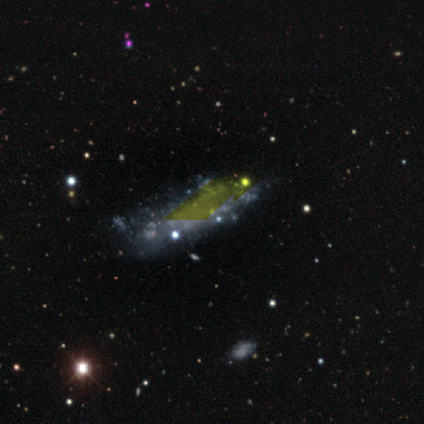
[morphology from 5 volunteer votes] Volunteers were most divided on "merging" (2-way tie): none: 50%, minor disturbance: 50%, major disturbance: 0%, merger: 0%. More confident: edge-on disk — no (100%); smooth or featured — featured or disk (80%); bar — no (75%); spiral arms — no (75%); bulge size — none (75%).